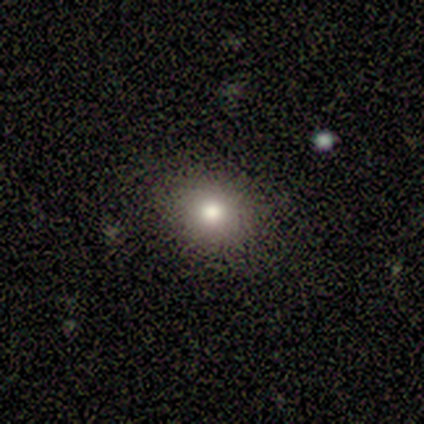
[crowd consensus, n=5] This is likely a smooth galaxy (60%). How rounded: likely round (67%). Merging: clearly none (100%).